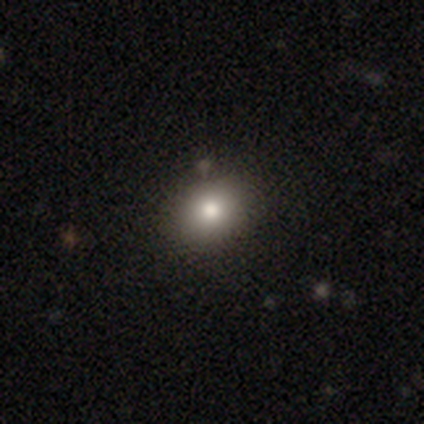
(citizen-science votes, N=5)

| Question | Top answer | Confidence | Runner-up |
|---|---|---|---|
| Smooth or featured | smooth | 80% | star or artifact (20%) |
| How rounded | in between | 100% | — |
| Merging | none | 75% | minor disturbance (25%) |